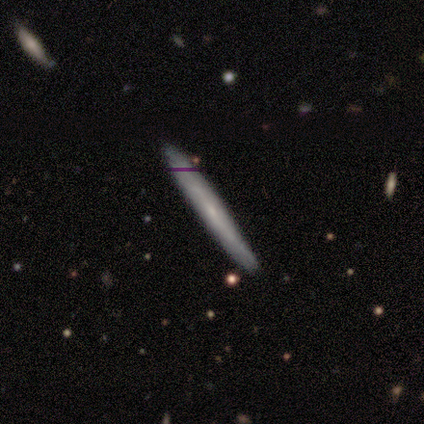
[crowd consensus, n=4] Smooth or featured? smooth (50%, tied with featured or disk)
How rounded? cigar-shaped (100%)
Merging? none (100%)